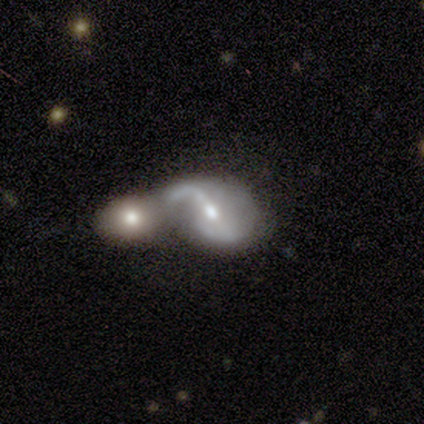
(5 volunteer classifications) Overall: featured or disk (80%). Edge-on disk: no (100%). Bar: weak (75%). Spiral arms: yes (75%). Spiral arm count: 1 (33%, tied with 2 and can't tell). Spiral winding: loose (67%; medium 33%). Bulge size: small (75%). Merging: merger (80%).